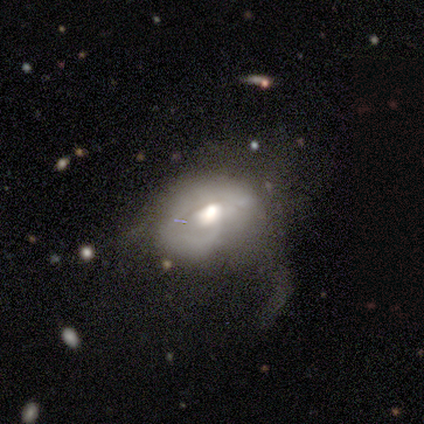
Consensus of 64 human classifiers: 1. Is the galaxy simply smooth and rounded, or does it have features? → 69% featured or disk, 25% smooth, 6% star or artifact.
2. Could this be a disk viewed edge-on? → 95% no, 5% yes.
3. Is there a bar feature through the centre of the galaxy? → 79% no, 21% weak, 0% strong.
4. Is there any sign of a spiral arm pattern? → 62% no, 38% yes.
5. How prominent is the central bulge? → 67% moderate, 31% large, 2% dominant, 0% small, 0% none.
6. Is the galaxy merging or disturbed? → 73% major disturbance, 13% none, 13% minor disturbance, 0% merger.